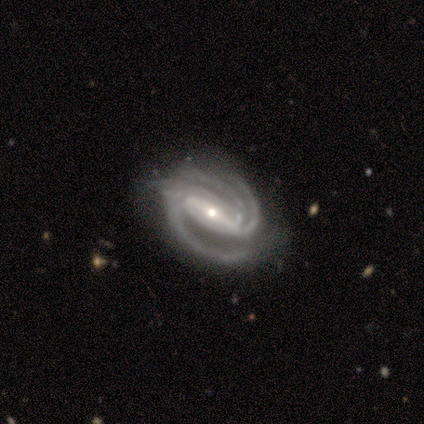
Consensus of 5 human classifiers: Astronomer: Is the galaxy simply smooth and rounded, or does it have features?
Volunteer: featured or disk — 80%.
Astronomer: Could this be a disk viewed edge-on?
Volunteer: no — 100%.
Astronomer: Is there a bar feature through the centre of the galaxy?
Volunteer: strong — 100%.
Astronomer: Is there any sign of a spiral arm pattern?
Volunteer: yes — 100%.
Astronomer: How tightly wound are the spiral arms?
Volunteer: tight — 75%.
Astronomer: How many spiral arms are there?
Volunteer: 3 — 100%.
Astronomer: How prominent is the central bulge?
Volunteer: moderate — 75%.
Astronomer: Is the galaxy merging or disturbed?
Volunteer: none — 100%.